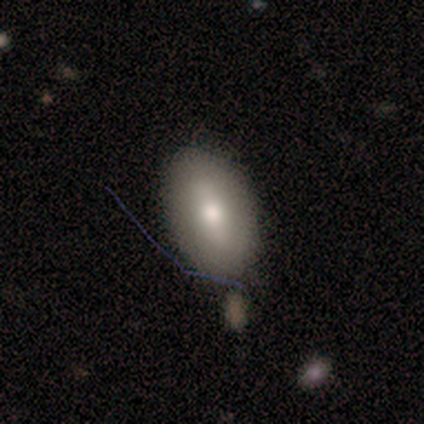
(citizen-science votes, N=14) smooth-or-featured: smooth: 71% | featured or disk: 29% | star or artifact: 0%
  how-rounded: in between: 100% | round: 0% | cigar-shaped: 0%
  merging: none: 93% | minor disturbance: 7% | major disturbance: 0% | merger: 0%